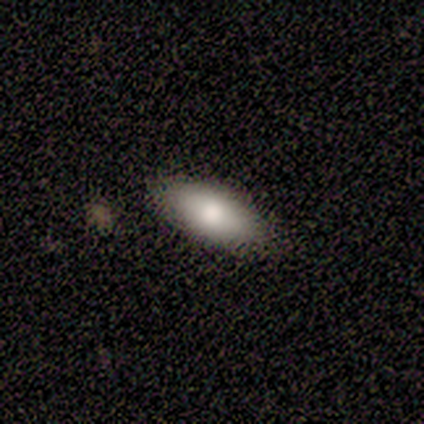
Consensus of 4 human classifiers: star or artifact 75%, smooth 25%, featured or disk 0%.